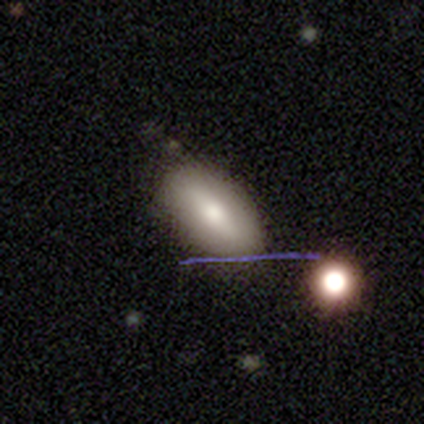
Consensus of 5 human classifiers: Q: Smooth or featured?
A: smooth (100%)
Q: How rounded?
A: in between (100%)
Q: Merging?
A: none (80%); runner-up: minor disturbance (20%)